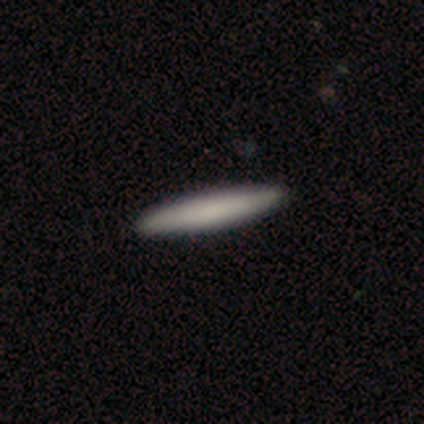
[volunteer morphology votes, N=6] Smooth or featured?
  - smooth: 67% *
  - star or artifact: 33%
  - featured or disk: 0%
How rounded?
  - cigar-shaped: 100% *
  - round: 0%
  - in between: 0%
Merging?
  - none: 100% *
  - minor disturbance: 0%
  - major disturbance: 0%
  - merger: 0%